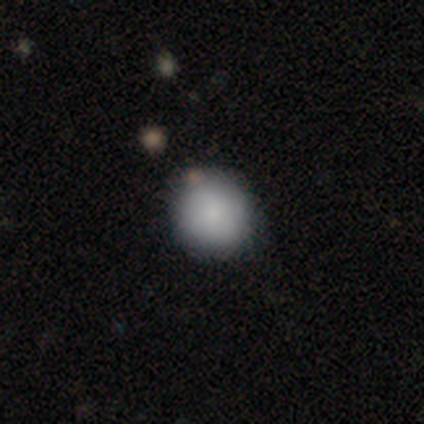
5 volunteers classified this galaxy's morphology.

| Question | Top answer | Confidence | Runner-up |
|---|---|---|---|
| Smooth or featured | smooth | 80% | featured or disk (20%) |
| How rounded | round | 75% | in between (25%) |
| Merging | none | 40% | tied: merger (40%) |